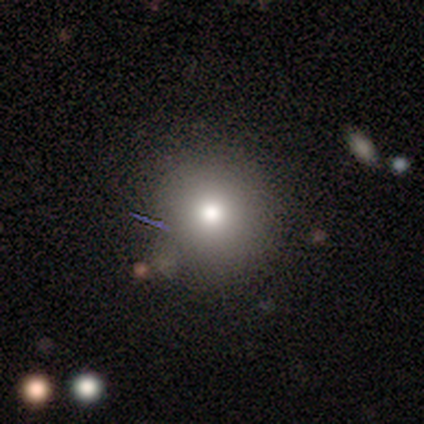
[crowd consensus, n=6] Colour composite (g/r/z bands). It shows a smooth galaxy with no disk features (100%) that is round (83%). Merging: none (67%).